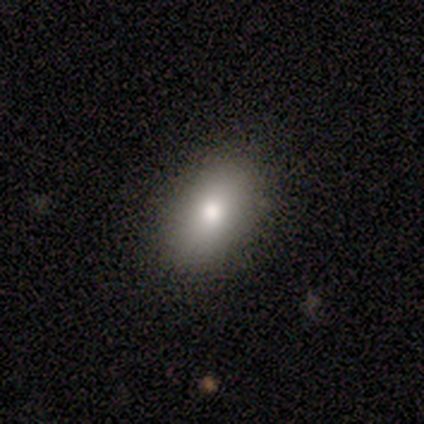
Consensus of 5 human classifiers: Q: Smooth or featured?
A: smooth (100%)
Q: How rounded?
A: in between (80%); runner-up: round (20%)
Q: Merging?
A: none (100%)